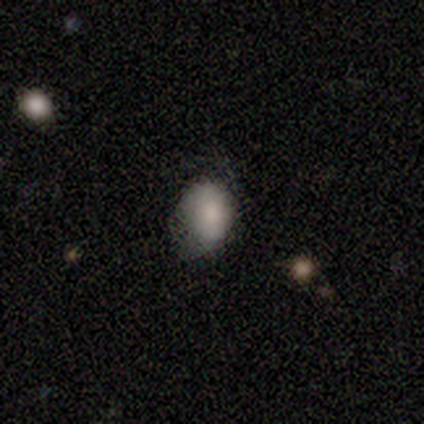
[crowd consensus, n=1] Smooth or featured? 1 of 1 (100%) said smooth. How rounded? 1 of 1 (100%) said in between. Merging? 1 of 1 (100%) said minor disturbance.